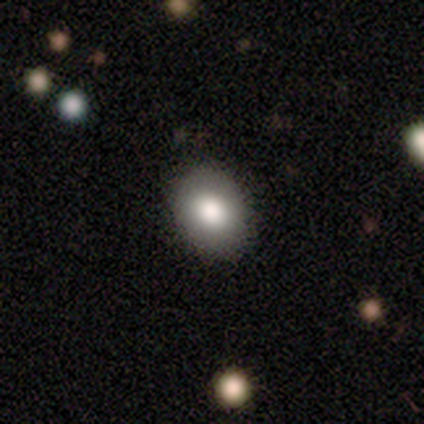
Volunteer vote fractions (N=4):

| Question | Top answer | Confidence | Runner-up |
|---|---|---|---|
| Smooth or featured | smooth | 50% | featured or disk (25%) |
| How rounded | round | 100% | — |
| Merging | none | 100% | — |